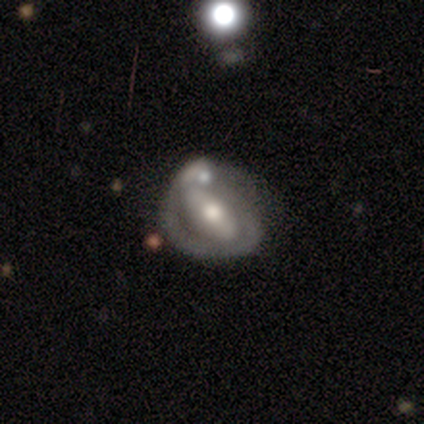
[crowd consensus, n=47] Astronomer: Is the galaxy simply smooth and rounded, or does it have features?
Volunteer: featured or disk — 62%.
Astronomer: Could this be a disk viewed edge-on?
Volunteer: no — 93%.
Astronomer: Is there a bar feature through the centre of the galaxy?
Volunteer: strong — 52% (runner-up: no, 33%).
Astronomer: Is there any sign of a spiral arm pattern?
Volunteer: yes — 59% (runner-up: no, 41%).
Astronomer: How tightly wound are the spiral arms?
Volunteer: tight — 44% (runner-up: loose, 38%).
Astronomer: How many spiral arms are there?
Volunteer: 1 — 50%.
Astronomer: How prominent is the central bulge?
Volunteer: moderate — 70%.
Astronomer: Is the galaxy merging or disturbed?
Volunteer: minor disturbance — 37% (runner-up: merger, 29%).